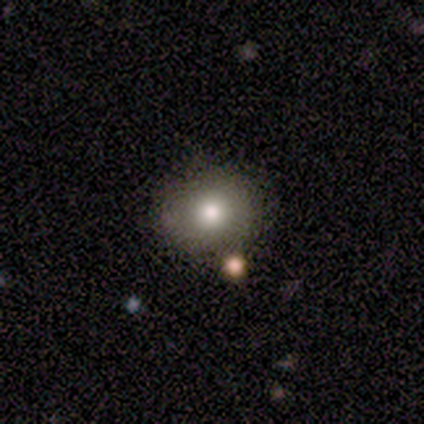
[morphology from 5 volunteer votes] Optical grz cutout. It shows a smooth galaxy with no disk features (80%) that is round (75%). Merging: none (75%).